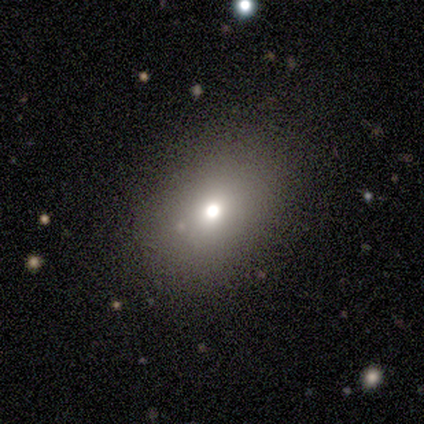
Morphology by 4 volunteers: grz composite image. It shows a smooth galaxy with no disk features (75%) that is in between round and cigar-shaped (100%). Merging: minor disturbance (67%).